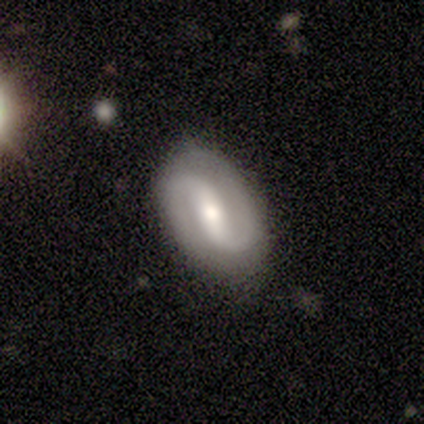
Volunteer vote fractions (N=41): Volunteers were most divided on "bar": strong: 39%, weak: 35%, no: 26%. More confident: edge-on disk — no (97%); spiral arm count — 2 (96%); spiral arms — yes (87%); merging — none (79%); smooth or featured — featured or disk (78%); bulge size — moderate (74%); spiral winding — medium (52%).